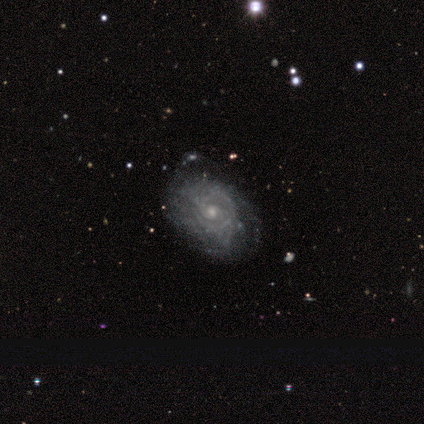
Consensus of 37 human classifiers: smooth-or-featured: featured or disk: 84% | smooth: 14% | star or artifact: 3%
  disk-edge-on: no: 97% | yes: 3%
    bar: no: 77% | weak: 20% | strong: 3%
    has-spiral-arms: yes: 87% | no: 13%
      spiral-winding: tight: 81% | medium: 15% | loose: 4%
      spiral-arm-count: can't tell: 69% | 2: 8% | 3: 8% | more than 4: 8% | 1: 4% | 4: 4%
    bulge-size: small: 63% | moderate: 37% | dominant: 0% | large: 0% | none: 0%
  merging: none: 53% | minor disturbance: 14% | major disturbance: 3% | merger: 3%